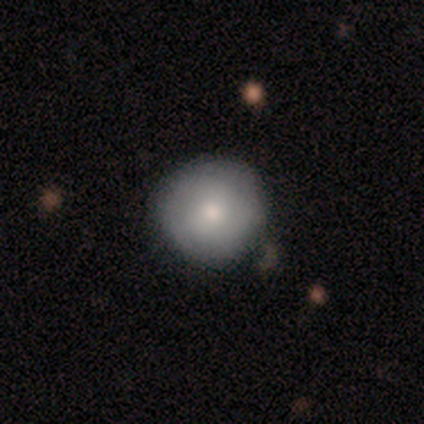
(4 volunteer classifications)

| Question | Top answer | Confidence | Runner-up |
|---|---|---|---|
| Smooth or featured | smooth | 50% | tied: featured or disk (50%) |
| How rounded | round | 100% | — |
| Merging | none | 100% | — |